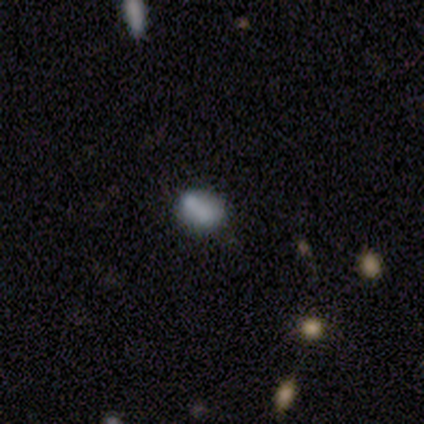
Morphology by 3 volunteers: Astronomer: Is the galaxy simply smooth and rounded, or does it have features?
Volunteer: smooth — 100%.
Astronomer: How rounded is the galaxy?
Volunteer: round — 67%.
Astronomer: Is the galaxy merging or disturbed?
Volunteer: none — 100%.